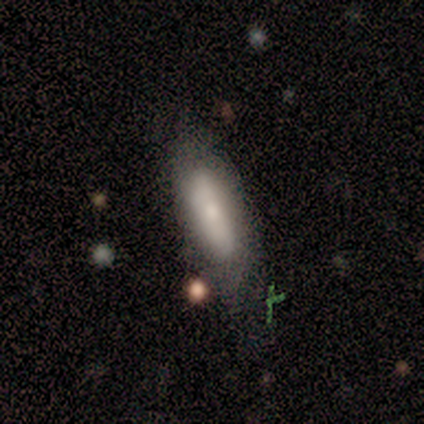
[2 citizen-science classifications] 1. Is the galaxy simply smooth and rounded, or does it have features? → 50% smooth (tied), 50% star or artifact (tied), 0% featured or disk.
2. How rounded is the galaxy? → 100% in between, 0% round, 0% cigar-shaped.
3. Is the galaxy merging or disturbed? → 100% none, 0% minor disturbance, 0% major disturbance, 0% merger.